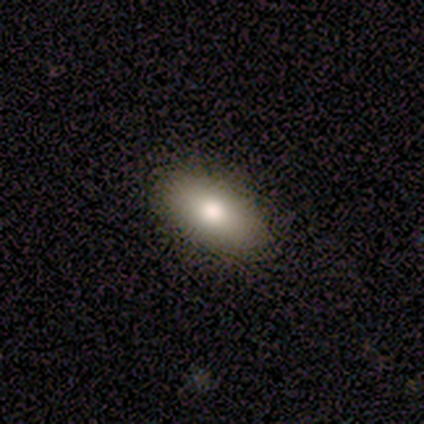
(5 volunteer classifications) Smooth or featured? smooth (100%)
How rounded? in between (100%)
Merging? none (100%)